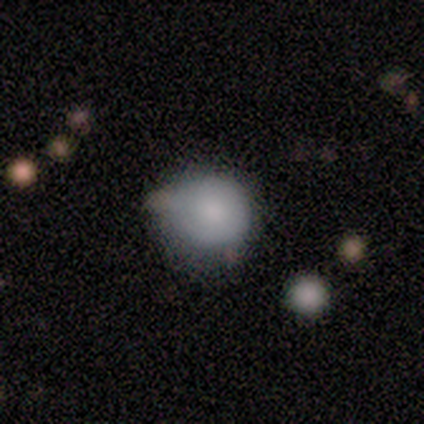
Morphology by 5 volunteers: type=smooth (80%); roundness=round (100%); merging=minor disturbance (60%).